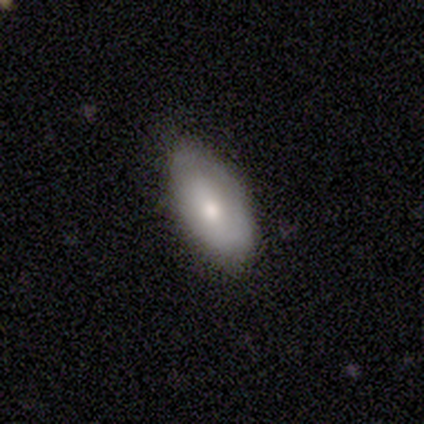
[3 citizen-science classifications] smooth 67%, featured or disk 33%, star or artifact 0%. Down the decision tree: how rounded — in between (100%); merging — none (67%).